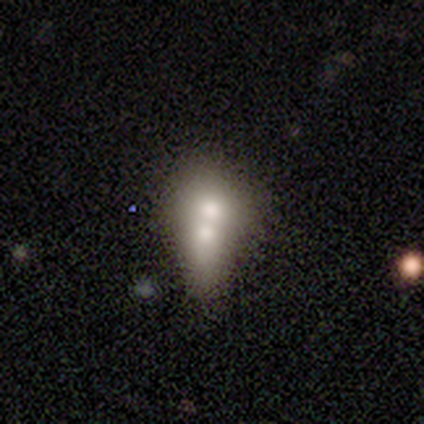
A smooth galaxy with no disk features (100%) that is in between round and cigar-shaped (100%). Merging: merger (100%).